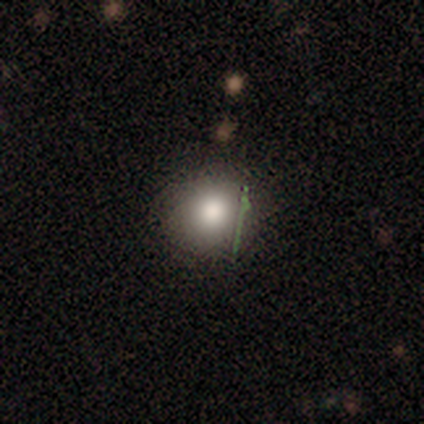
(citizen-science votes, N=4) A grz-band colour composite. It shows a smooth galaxy with no disk features (100%) that is round (100%). Merging: none (75%).